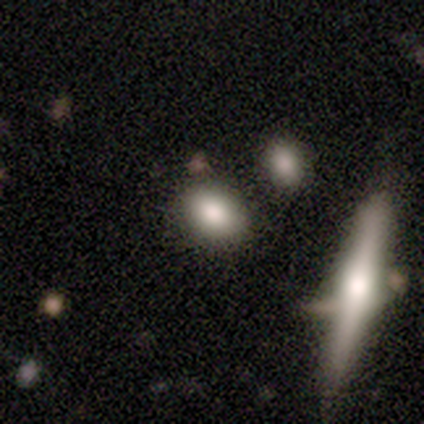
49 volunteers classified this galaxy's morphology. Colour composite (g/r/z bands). It shows a smooth galaxy with no disk features (71%) that is in between round and cigar-shaped (57%). Merging: none (80%).